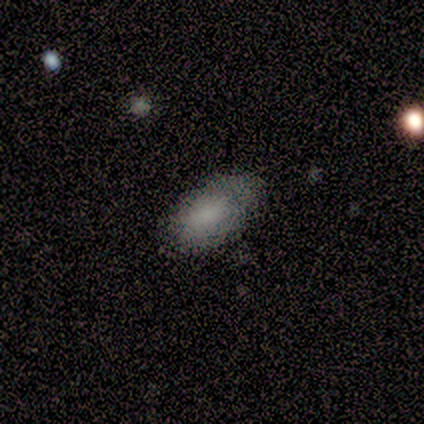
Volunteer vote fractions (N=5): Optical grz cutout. It shows a smooth galaxy with no disk features (60%) that is in between round and cigar-shaped (100%). Merging: minor disturbance (67%).